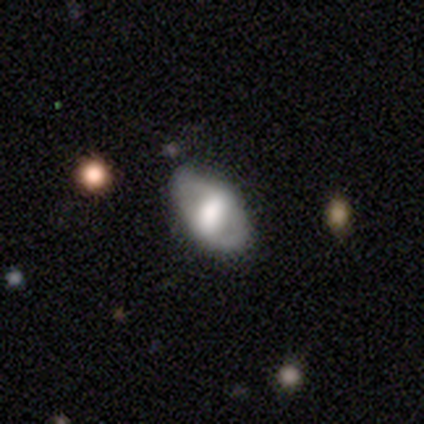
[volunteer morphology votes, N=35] A smooth galaxy with no disk features (46%, tied with featured or disk) that is in between round and cigar-shaped (100%). Merging: none (81%).